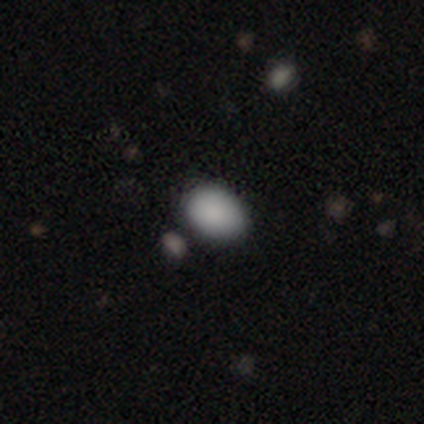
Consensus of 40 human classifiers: Smooth or featured: smooth — 90% (star or artifact — 8%)
How rounded: in between — 69% (round — 31%)
Merging: none — 65% (minor disturbance — 24%)